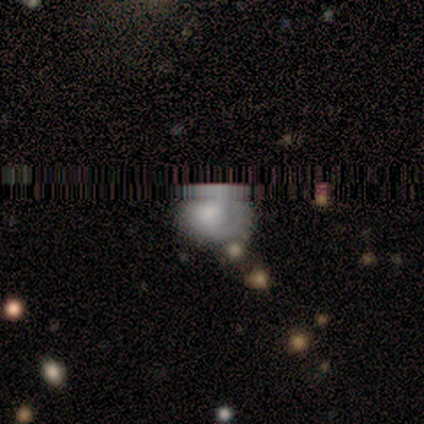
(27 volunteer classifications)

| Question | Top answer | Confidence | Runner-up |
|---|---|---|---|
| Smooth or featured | featured or disk | 37% | star or artifact (33%) |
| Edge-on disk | no | 100% | — |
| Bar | no | 80% | weak (20%) |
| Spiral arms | no | 60% | yes (40%) |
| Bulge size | moderate | 70% | large (20%) |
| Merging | none | 44% | minor disturbance (28%) |